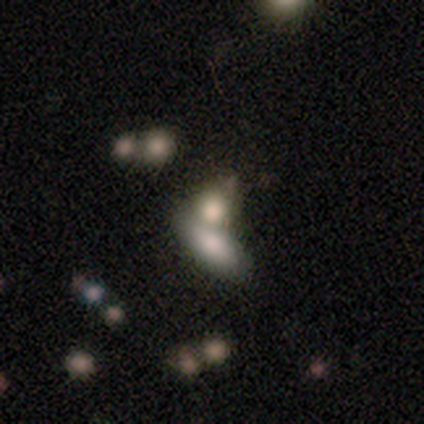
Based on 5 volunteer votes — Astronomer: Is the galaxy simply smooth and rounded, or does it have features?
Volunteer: smooth — 80%.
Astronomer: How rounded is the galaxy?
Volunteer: in between — 100%.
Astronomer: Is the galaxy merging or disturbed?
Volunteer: merger — 80%.